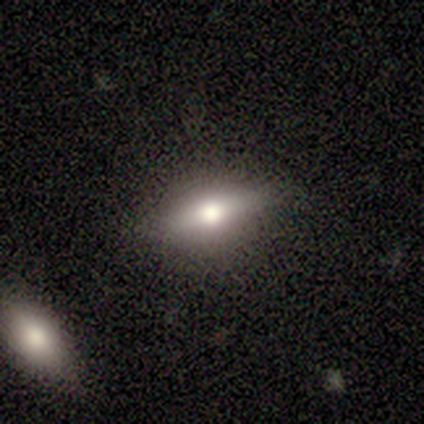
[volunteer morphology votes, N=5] Smooth or featured? smooth (60%)
How rounded? cigar-shaped (67%)
Merging? none (100%)